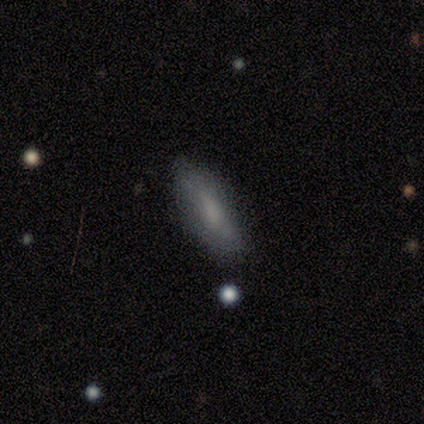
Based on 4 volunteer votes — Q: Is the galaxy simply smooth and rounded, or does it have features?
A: smooth — 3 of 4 (75%).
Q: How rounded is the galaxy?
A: in between — 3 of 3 (100%).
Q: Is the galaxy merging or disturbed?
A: none — 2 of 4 (50%, tied with minor disturbance).